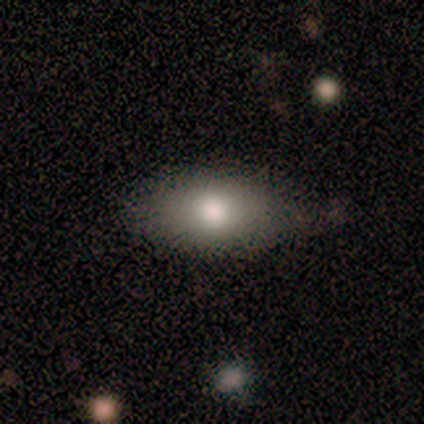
Smooth or featured? 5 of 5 (100%) said smooth. How rounded? 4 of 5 (80%) said in between. Merging? 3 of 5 (60%) said none.